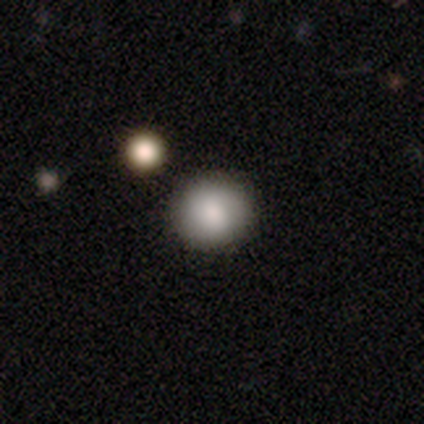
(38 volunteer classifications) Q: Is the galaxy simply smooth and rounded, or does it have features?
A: smooth — 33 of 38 (87%).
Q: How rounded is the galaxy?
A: round — 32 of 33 (97%).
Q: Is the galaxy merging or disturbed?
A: none — 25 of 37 (68%).